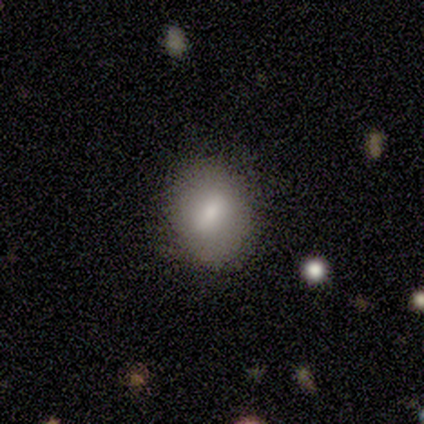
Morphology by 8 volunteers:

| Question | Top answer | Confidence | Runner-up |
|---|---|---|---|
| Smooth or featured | smooth | 75% | featured or disk (12%) |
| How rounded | round | 67% | in between (33%) |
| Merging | none | 86% | minor disturbance (14%) |